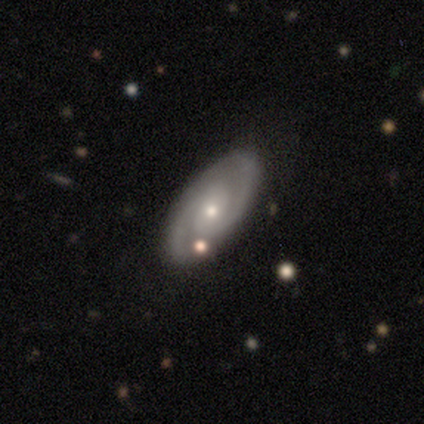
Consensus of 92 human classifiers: Volunteers were most divided on "spiral winding": tight: 49%, medium: 44%, loose: 7%. More confident: edge-on disk — no (97%); spiral arms — yes (97%); spiral arm count — 2 (90%); merging — none (87%); smooth or featured — featured or disk (82%); bar — no (73%); bulge size — small (64%).